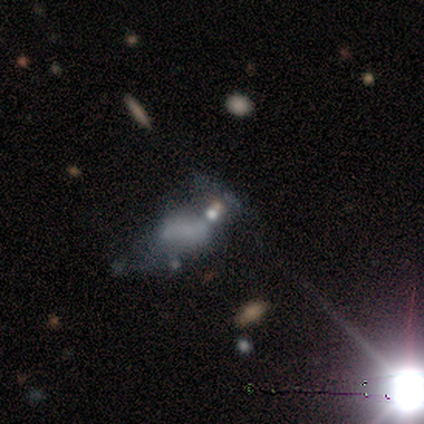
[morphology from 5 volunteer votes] Overall: star or artifact (80%).